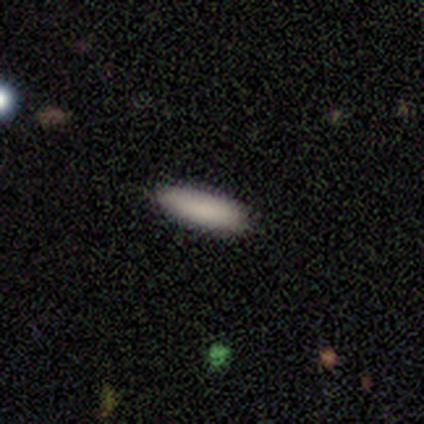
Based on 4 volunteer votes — smooth-or-featured: smooth: 100% | featured or disk: 0% | star or artifact: 0%
  how-rounded: in between: 50% (tied) | cigar-shaped: 50% (tied) | round: 0%
  merging: none: 100% | minor disturbance: 0% | major disturbance: 0% | merger: 0%